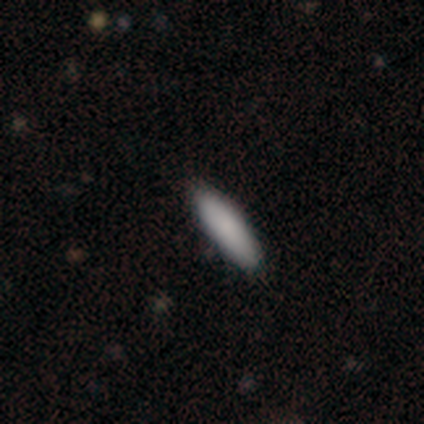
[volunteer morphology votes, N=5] Smooth or featured? 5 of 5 (100%) said smooth. How rounded? 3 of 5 (60%) said cigar-shaped. Merging? 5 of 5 (100%) said none.